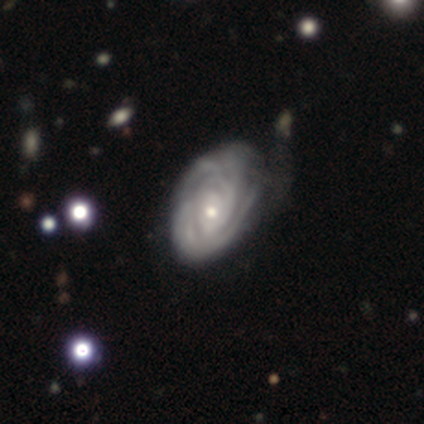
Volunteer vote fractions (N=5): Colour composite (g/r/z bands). It shows a featured or disk galaxy (100%) with no bar (80%), 4 (40%, tied with can't tell) tight (80%) spiral arms (100%) and a small central bulge (60%). Merging: none (60%).